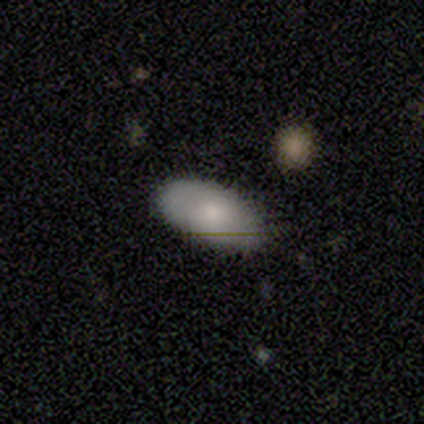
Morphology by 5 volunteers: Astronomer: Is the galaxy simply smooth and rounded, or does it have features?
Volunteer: smooth — 80%.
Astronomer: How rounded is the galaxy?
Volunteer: in between — 100%.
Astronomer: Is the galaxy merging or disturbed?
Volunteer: none — 80%.